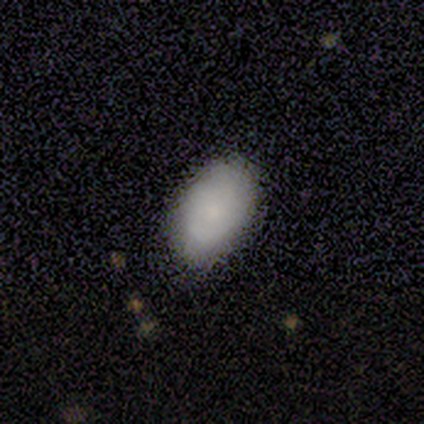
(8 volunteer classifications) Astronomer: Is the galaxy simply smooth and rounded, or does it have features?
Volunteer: smooth — 75%.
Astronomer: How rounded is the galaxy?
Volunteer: in between — 100%.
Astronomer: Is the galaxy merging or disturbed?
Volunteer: none — 83%.